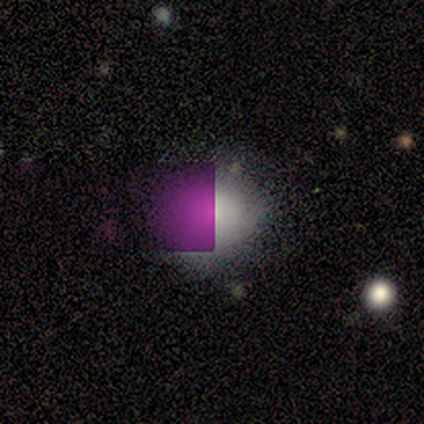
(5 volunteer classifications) Smooth or featured? 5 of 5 (100%) said smooth. How rounded? 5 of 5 (100%) said round. Merging? 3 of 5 (60%) said none.